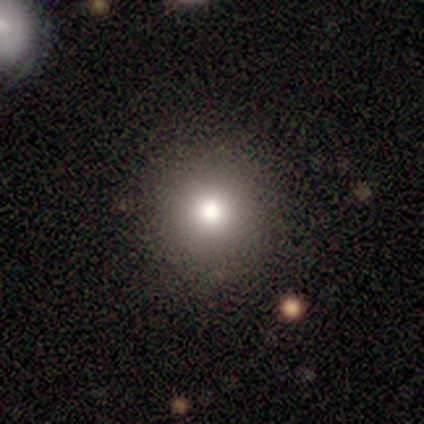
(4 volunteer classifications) Smooth or featured? 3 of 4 (75%) said smooth. How rounded? 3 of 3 (100%) said round. Merging? 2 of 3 (67%) said none.